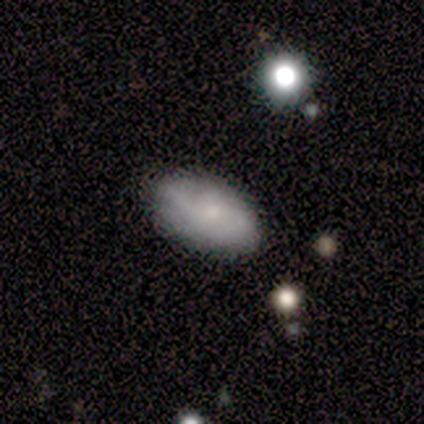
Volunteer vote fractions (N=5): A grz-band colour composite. It shows a smooth galaxy with no disk features (80%) that is in between round and cigar-shaped (100%). Merging: none (80%).